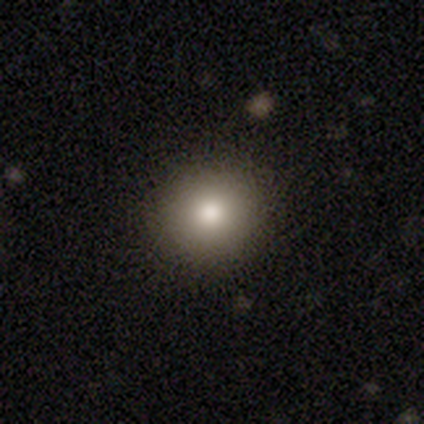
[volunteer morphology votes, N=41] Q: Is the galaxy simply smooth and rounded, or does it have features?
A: smooth — 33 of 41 (80%).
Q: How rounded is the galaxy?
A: round — 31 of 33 (94%).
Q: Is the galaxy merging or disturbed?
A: none — 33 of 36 (92%).